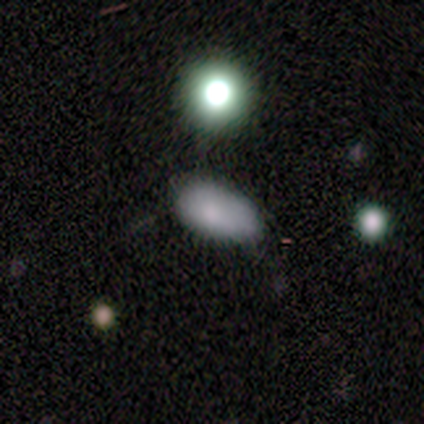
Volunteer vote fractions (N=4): Smooth or featured: smooth — 50% (tied with star or artifact — 50%)
How rounded: in between — 100%
Merging: none — 50% (tied with minor disturbance — 50%)